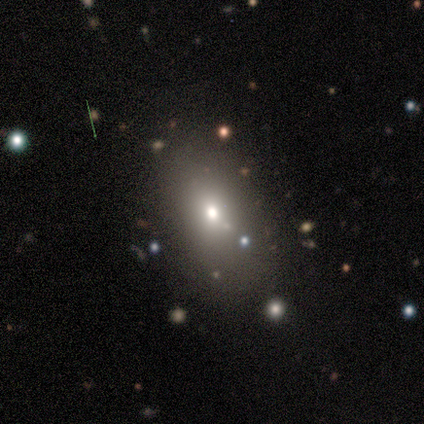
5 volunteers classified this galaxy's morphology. Overall: smooth (60%; featured or disk 20%). How rounded: in between (100%). Merging: none (100%).